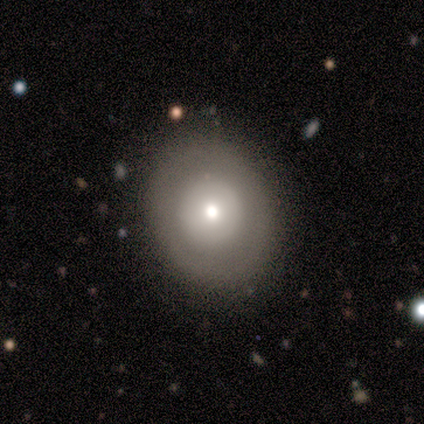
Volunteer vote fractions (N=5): This appears to be a featured or disk galaxy (80%) with no bar (100%), no spiral arms (100%) and a moderate central bulge (75%). Merging: none (100%).